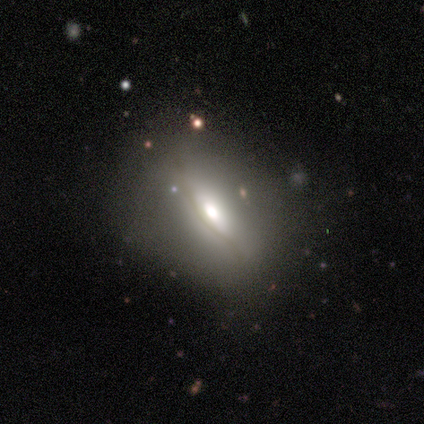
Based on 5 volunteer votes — A featured or disk galaxy (60%) with no bar (100%), no spiral arms (100%) and a large central bulge (50%, tied with moderate). Merging: none (80%).